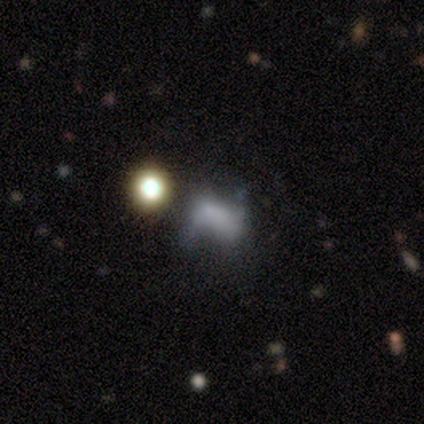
smooth_or_featured: featured or disk (p=0.75) [alt: smooth p=0.25]
disk_edge_on: no (p=1.00)
bar: no (p=1.00)
has_spiral_arms: no (p=1.00)
bulge_size: none (p=0.67) [alt: small p=0.33]
merging: minor disturbance (p=0.50) [alt: none p=0.25]